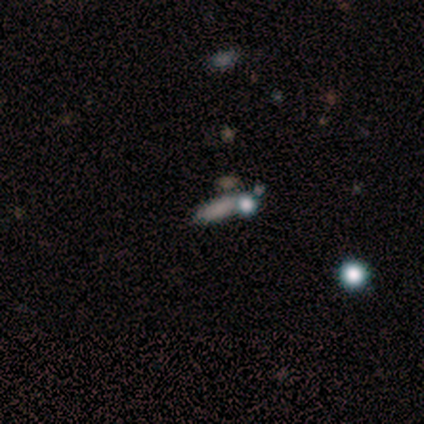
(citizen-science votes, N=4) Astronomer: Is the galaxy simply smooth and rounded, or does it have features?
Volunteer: smooth — 75%.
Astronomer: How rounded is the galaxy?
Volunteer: cigar-shaped — 67%.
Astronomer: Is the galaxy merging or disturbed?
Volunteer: none — 67%.